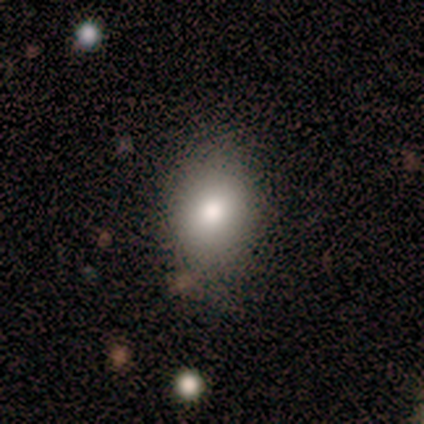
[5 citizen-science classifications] This is likely a smooth galaxy (60%). How rounded: likely in between (67%). Merging: likely none (75%).